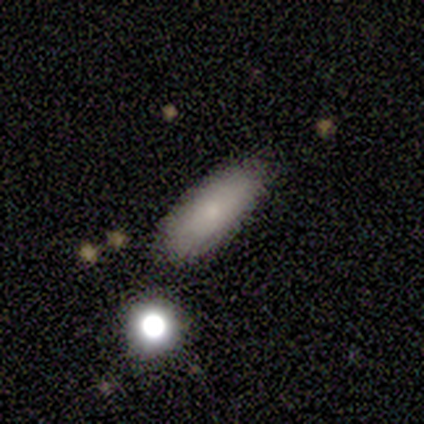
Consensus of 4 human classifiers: Smooth or featured: smooth — 75% (star or artifact — 25%)
How rounded: in between — 100%
Merging: none — 100%